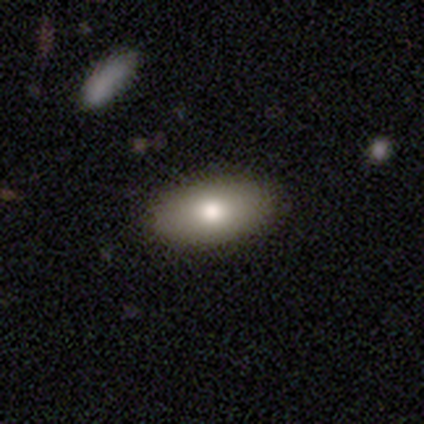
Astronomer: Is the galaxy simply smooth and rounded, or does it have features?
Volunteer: smooth — 100%.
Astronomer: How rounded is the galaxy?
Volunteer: in between — 100%.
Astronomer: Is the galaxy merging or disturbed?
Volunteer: none — 100%.